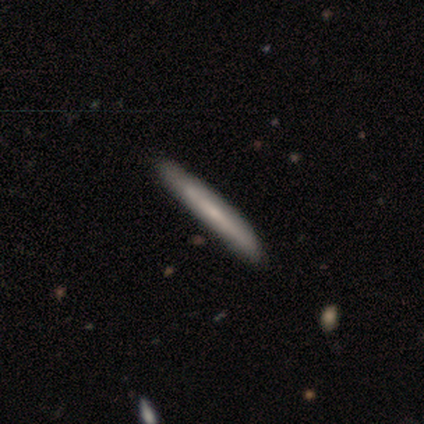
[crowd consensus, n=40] Smooth or featured? smooth (50%, tied with featured or disk)
How rounded? cigar-shaped (95%)
Merging? none (70%)